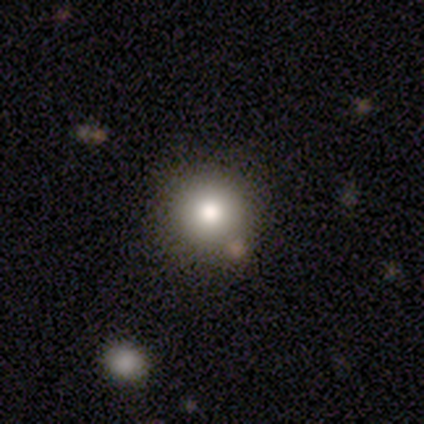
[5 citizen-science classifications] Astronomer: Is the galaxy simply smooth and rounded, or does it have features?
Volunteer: smooth — 80%.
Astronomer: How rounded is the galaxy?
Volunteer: round — 100%.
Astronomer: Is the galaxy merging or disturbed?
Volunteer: none — 100%.